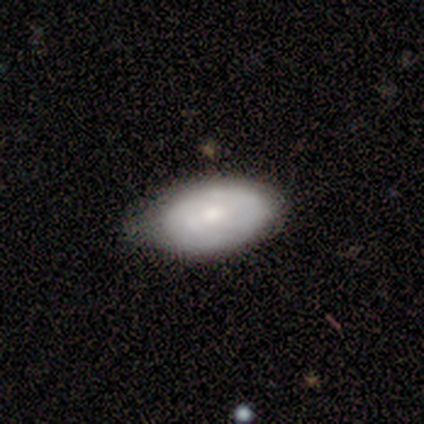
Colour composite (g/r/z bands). It shows a smooth galaxy with no disk features (100%) that is in between round and cigar-shaped (100%). Merging: minor disturbance (100%).